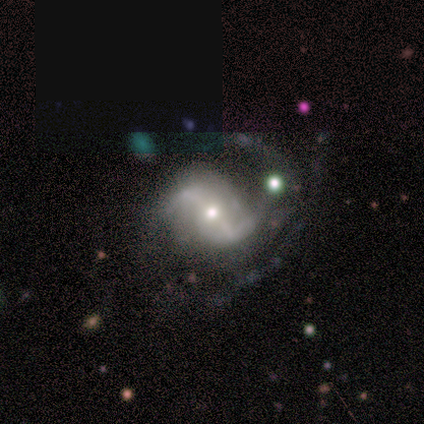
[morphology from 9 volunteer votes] Smooth or featured? featured or disk (78%)
Edge-on disk? no (86%)
Bar? strong (50%)
Spiral arms? yes (100%)
Spiral winding? loose (50%)
Spiral arm count? 2 (100%)
Bulge size? small (50%)
Merging? none (75%)